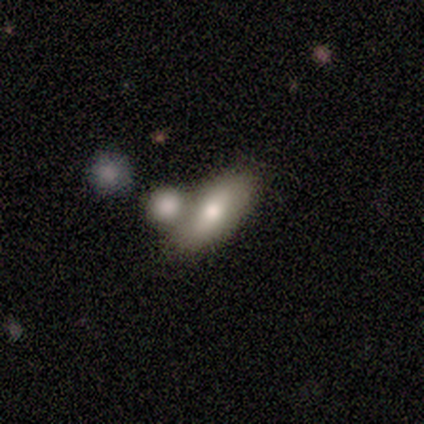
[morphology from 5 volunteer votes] smooth 40% (tied), star or artifact 40% (tied), featured or disk 20%. Down the decision tree: how rounded — in between (100%); merging — merger (100%).